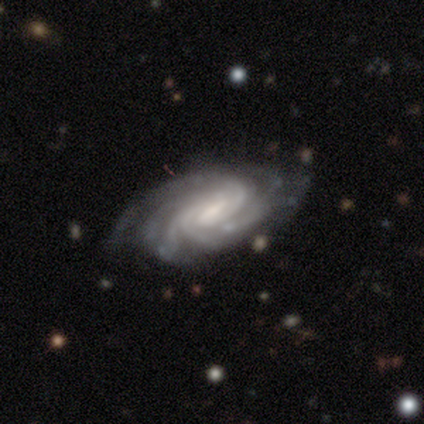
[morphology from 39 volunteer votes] Smooth or featured? 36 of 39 (92%) said featured or disk. Edge-on disk? 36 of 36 (100%) said no. Bar? 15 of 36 (42%) said strong. Spiral arms? 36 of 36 (100%) said yes. Spiral winding? 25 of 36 (69%) said tight. Spiral arm count? 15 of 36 (42%) said more than 4. Bulge size? 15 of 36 (42%) said moderate. Merging? 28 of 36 (78%) said none.